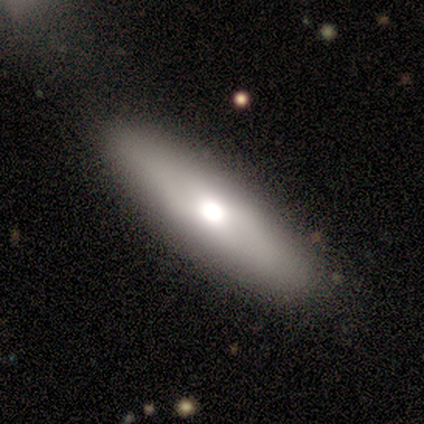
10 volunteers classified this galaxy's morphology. Smooth or featured: smooth — 70% (featured or disk — 30%)
How rounded: in between — 86% (cigar-shaped — 14%)
Merging: none — 100%